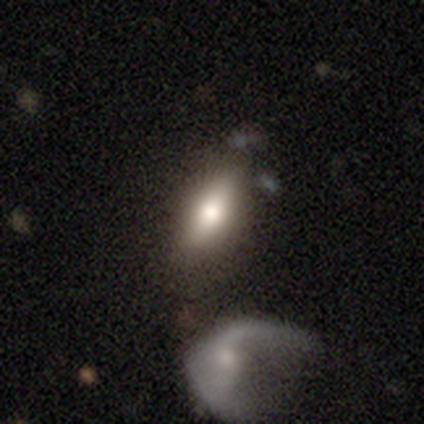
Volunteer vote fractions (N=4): This is likely a featured or disk galaxy (75%). It is clearly viewed edge-on (100%). Edge-on bulge: clearly rounded (100%). Merging: clearly none (100%).